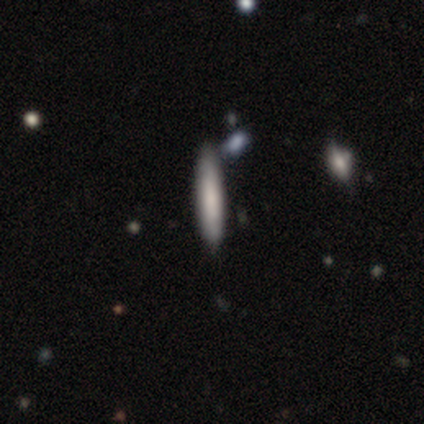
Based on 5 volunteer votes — A smooth galaxy with no disk features (100%) that is cigar-shaped (80%).

Vote fractions:
- Smooth or featured? smooth: 100% / featured or disk: 0% / star or artifact: 0%
- How rounded? cigar-shaped: 80% / in between: 20% / round: 0%
- Merging? none: 100% / minor disturbance: 0% / major disturbance: 0% / merger: 0%